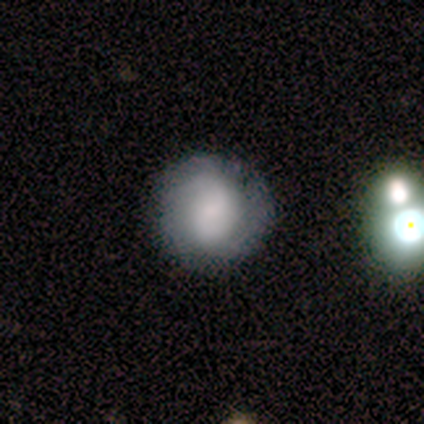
Volunteers were most divided on "merging" (2-way tie): none: 43%, minor disturbance: 43%, major disturbance: 14%, merger: 0%. More confident: how rounded — round (100%); smooth or featured — smooth (71%).